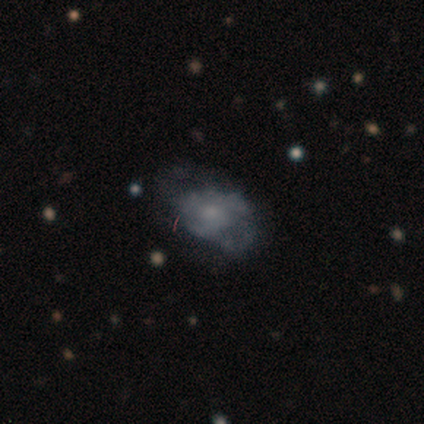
Q: Smooth or featured?
A: featured or disk (67%); runner-up: smooth (33%)
Q: Edge-on disk?
A: no (100%)
Q: Bar?
A: no (100%)
Q: Spiral arms?
A: yes (100%)
Q: Spiral winding?
A: tight (50%); tied with: medium (50%)
Q: Spiral arm count?
A: can't tell (100%)
Q: Bulge size?
A: small (100%)
Q: Merging?
A: minor disturbance (67%); runner-up: none (33%)